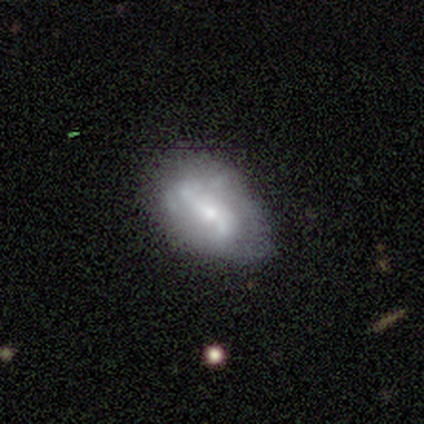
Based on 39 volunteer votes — Smooth or featured: featured or disk — 69% (smooth — 26%)
Edge-on disk: no — 100%
Bar: weak — 52% (strong — 26%)
Spiral arms: yes — 70% (no — 30%)
Spiral winding: loose — 84% (medium — 16%)
Spiral arm count: 2 — 79% (can't tell — 21%)
Bulge size: small — 63% (moderate — 26%)
Merging: none — 41% (minor disturbance — 22%)